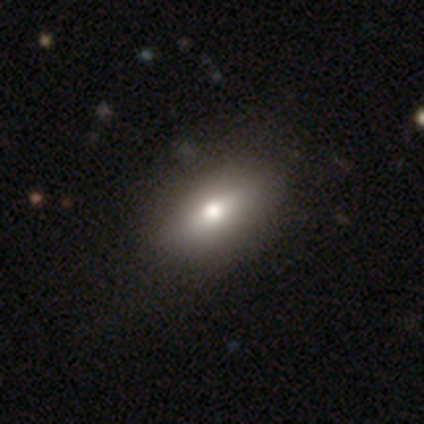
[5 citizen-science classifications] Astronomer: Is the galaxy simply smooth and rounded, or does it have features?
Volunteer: smooth — 80%.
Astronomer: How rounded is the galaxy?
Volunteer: in between — 75%.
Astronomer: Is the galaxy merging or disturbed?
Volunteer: none — 100%.